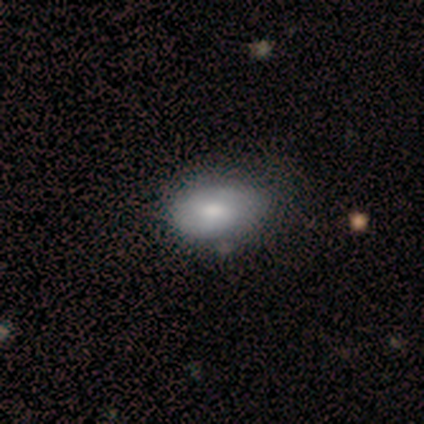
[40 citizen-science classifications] Q: Smooth or featured?
A: smooth (57%); runner-up: featured or disk (40%)
Q: How rounded?
A: in between (100%)
Q: Merging?
A: none (36%); runner-up: minor disturbance (21%)